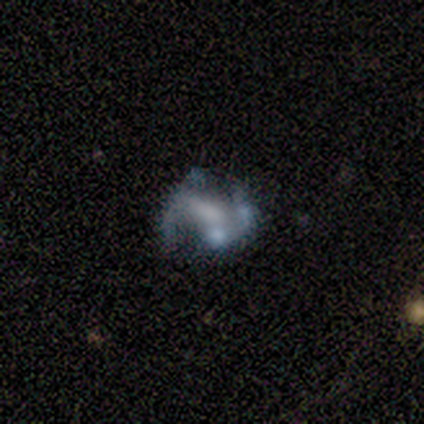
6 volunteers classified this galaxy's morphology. Smooth or featured? featured or disk (67%)
Edge-on disk? no (100%)
Bar? no (50%)
Spiral arms? yes (75%)
Spiral winding? loose (67%)
Spiral arm count? 2 (67%)
Bulge size? large (50%, tied with moderate)
Merging? minor disturbance (40%, tied with major disturbance)